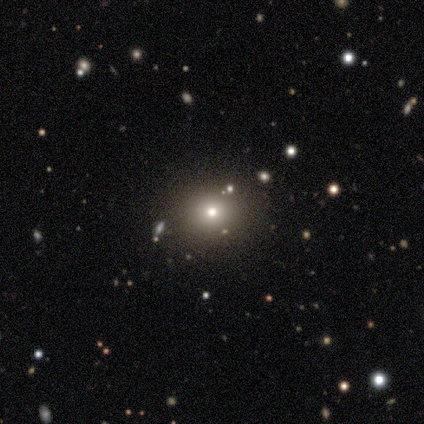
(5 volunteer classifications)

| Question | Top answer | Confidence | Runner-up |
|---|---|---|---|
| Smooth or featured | featured or disk | 60% | smooth (20%) |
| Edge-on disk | no | 67% | yes (33%) |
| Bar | no | 100% | — |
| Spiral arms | no | 100% | — |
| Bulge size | moderate | 50% | tied: small (50%) |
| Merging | none | 75% | minor disturbance (25%) |